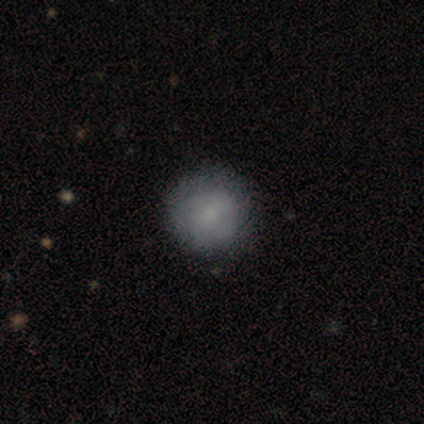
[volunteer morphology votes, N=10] smooth 80%, featured or disk 20%, star or artifact 0%. Down the decision tree: how rounded — round (100%); merging — none (90%).